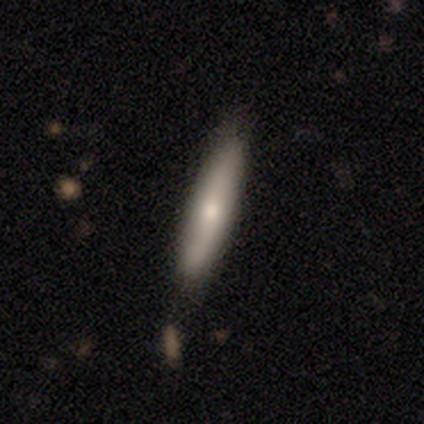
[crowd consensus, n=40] smooth-or-featured: smooth: 72% | featured or disk: 25% | star or artifact: 2%
  how-rounded: cigar-shaped: 86% | in between: 10% | round: 3%
  merging: none: 72% | minor disturbance: 18% | major disturbance: 10% | merger: 0%